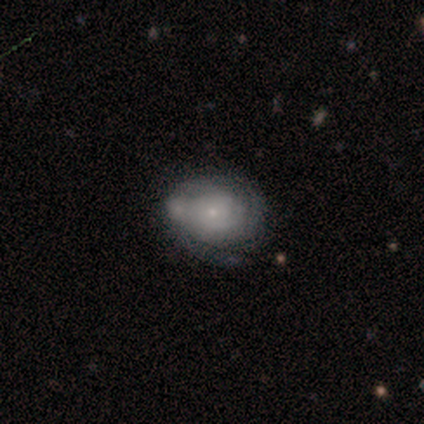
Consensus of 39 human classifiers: Smooth or featured? 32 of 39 (82%) said featured or disk. Edge-on disk? 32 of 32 (100%) said no. Bar? 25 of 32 (78%) said no. Spiral arms? 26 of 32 (81%) said yes. Spiral winding? 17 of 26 (65%) said tight. Spiral arm count? 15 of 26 (58%) said can't tell. Bulge size? 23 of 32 (72%) said small. Merging? 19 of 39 (49%) said none.